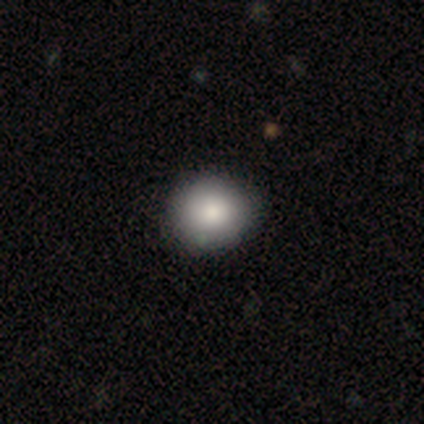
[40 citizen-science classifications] Smooth or featured? 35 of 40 (88%) said smooth. How rounded? 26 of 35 (74%) said round. Merging? 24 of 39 (62%) said none.